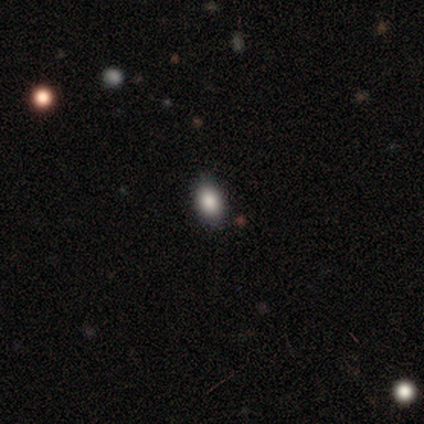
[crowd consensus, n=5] Volunteers were most divided on "smooth or featured": smooth: 60%, featured or disk: 40%, star or artifact: 0%. More confident: how rounded — in between (100%); merging — none (60%).